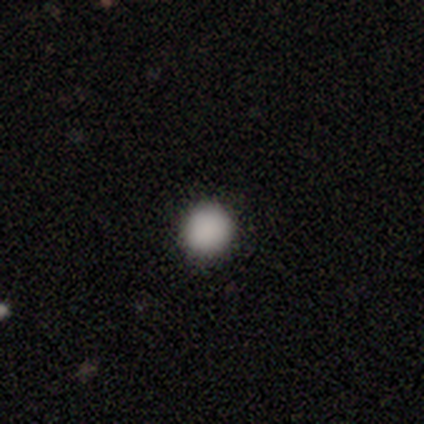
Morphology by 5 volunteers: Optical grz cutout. It shows a smooth galaxy with no disk features (100%) that is round (100%). Merging: none (100%).